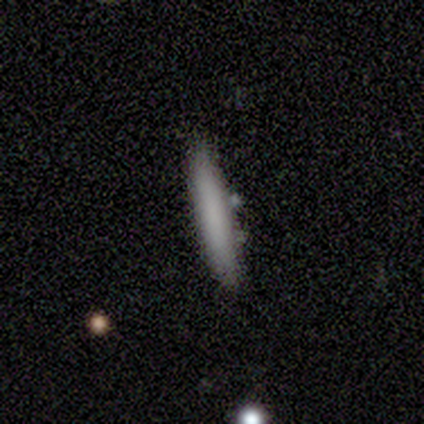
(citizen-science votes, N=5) Smooth or featured? smooth (80%)
How rounded? cigar-shaped (75%)
Merging? none (80%)